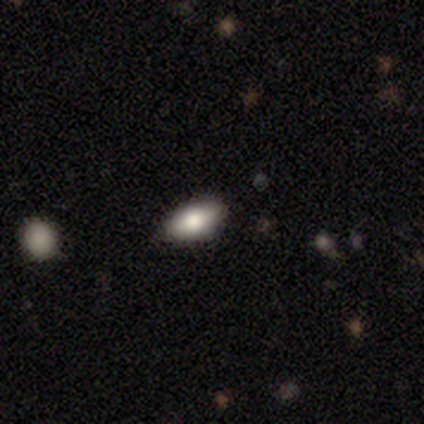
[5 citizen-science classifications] Smooth or featured?
  - smooth: 80% *
  - star or artifact: 20%
  - featured or disk: 0%
How rounded?
  - in between: 100% *
  - round: 0%
  - cigar-shaped: 0%
Merging?
  - none: 100% *
  - minor disturbance: 0%
  - major disturbance: 0%
  - merger: 0%